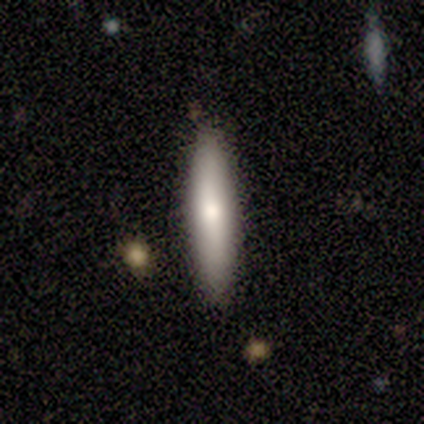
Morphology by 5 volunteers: Volunteers were most divided on "smooth or featured": featured or disk: 60%, smooth: 40%, star or artifact: 0%. More confident: edge-on disk — yes (100%); merging — none (80%); edge-on bulge — rounded (67%).